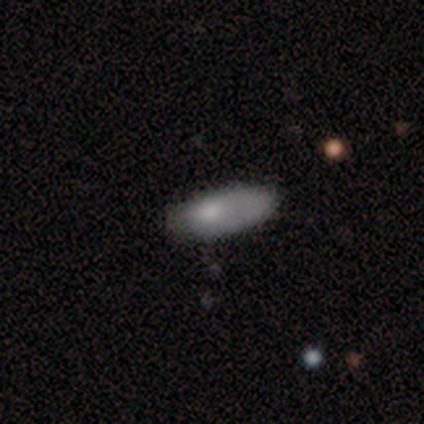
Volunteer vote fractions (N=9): Volunteers were most divided on "how rounded": in between: 60%, cigar-shaped: 40%, round: 0%. More confident: merging — none (62%); smooth or featured — smooth (56%).